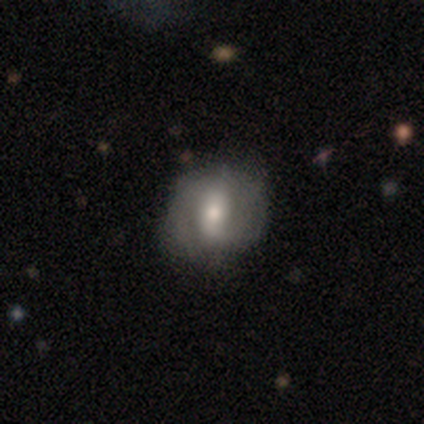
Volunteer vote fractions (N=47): smooth_or_featured: smooth (p=0.51) [alt: featured or disk p=0.40]
how_rounded: round (p=0.50) [tied with: in between p=0.50]
merging: none (p=0.58) [alt: minor disturbance p=0.30]